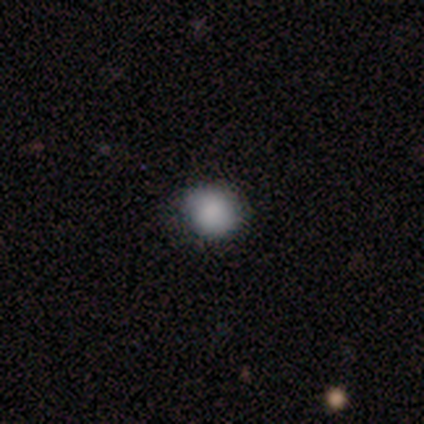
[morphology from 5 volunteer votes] smooth_or_featured: smooth (p=0.80) [alt: featured or disk p=0.20]
how_rounded: round (p=1.00)
merging: none (p=1.00)